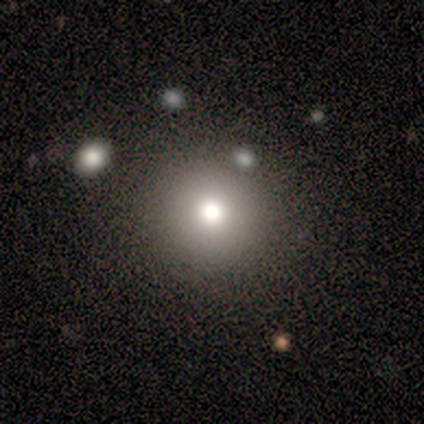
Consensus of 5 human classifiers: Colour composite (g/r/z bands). It shows a smooth galaxy with no disk features (60%) that is round (100%). Merging: none (67%).